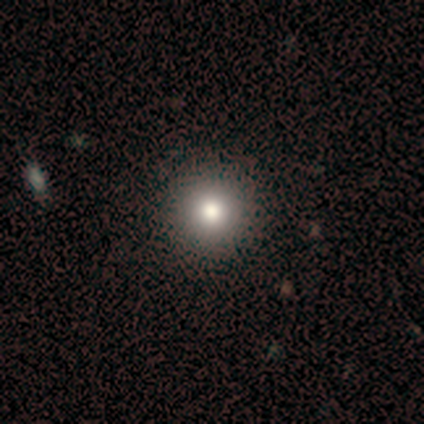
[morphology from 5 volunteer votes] smooth_or_featured: smooth (p=0.40) [tied with: star or artifact p=0.40]
how_rounded: round (p=1.00)
merging: none (p=1.00)